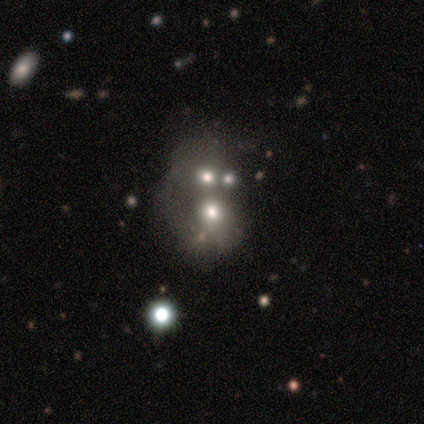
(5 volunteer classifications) Volunteers were most divided on "smooth or featured": featured or disk: 60%, star or artifact: 40%, smooth: 0%. More confident: edge-on disk — no (100%); bar — no (100%); spiral arms — no (100%); merging — merger (100%); bulge size — large (67%).